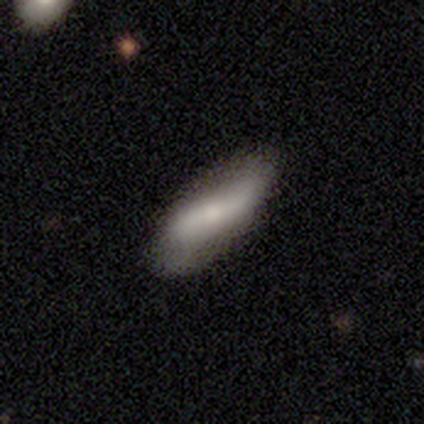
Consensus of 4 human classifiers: Q: Smooth or featured?
A: smooth (50%); runner-up: featured or disk (25%)
Q: How rounded?
A: in between (100%)
Q: Merging?
A: none (67%); runner-up: minor disturbance (33%)